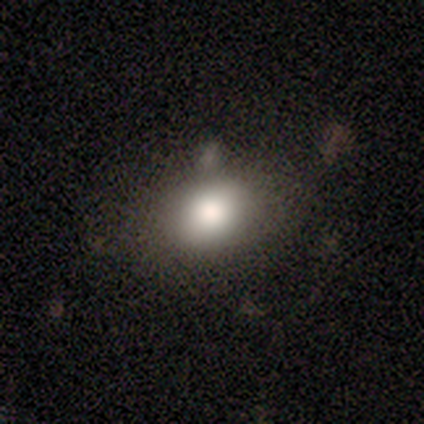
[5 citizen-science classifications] Smooth or featured?
  - smooth: 60% *
  - featured or disk: 20%
  - star or artifact: 20%
How rounded?
  - round: 67% *
  - in between: 33%
  - cigar-shaped: 0%
Merging?
  - none: 100% *
  - minor disturbance: 0%
  - major disturbance: 0%
  - merger: 0%